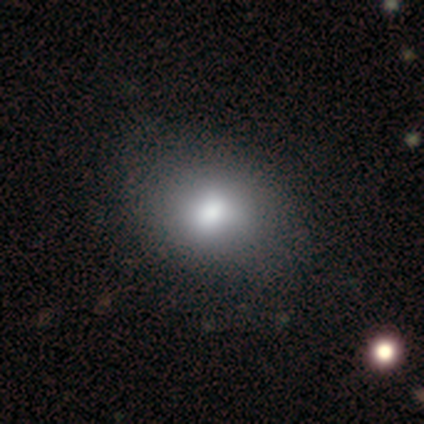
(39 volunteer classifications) A smooth galaxy with no disk features (77%) that is in between round and cigar-shaped (70%).

Vote fractions:
- Smooth or featured? smooth: 77% / featured or disk: 21% / star or artifact: 3%
- How rounded? in between: 70% / round: 30% / cigar-shaped: 0%
- Merging? none: 66% / minor disturbance: 13% / merger: 3% / major disturbance: 0%